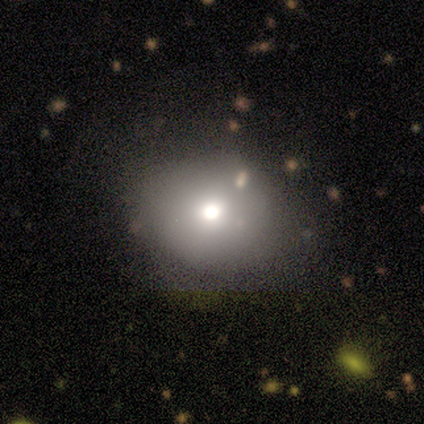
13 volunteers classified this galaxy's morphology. A smooth galaxy with no disk features (69%) that is round (100%).

Vote fractions:
- Smooth or featured? smooth: 69% / featured or disk: 15% / star or artifact: 15%
- How rounded? round: 100% / in between: 0% / cigar-shaped: 0%
- Merging? none: 64% / minor disturbance: 27% / major disturbance: 9% / merger: 0%